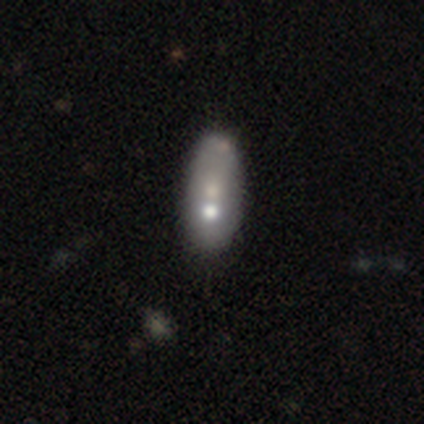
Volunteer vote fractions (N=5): Morphology: type=featured or disk (60%); edge-on=no (100%); bar=no (100%); spiral arms=no (100%); bulge=moderate (67%); merging=none (25%, tied with minor disturbance, major disturbance and merger).